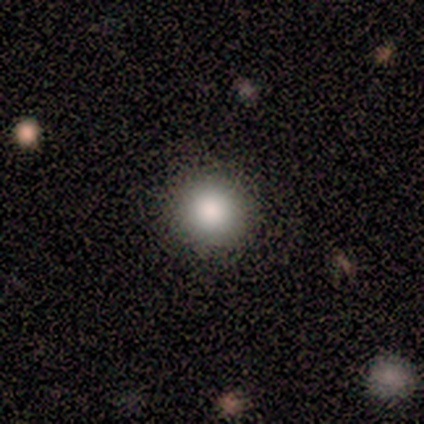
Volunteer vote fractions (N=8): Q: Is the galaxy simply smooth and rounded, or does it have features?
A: smooth — 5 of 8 (62%).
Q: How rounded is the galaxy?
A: round — 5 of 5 (100%).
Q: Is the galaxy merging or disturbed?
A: none — 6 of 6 (100%).